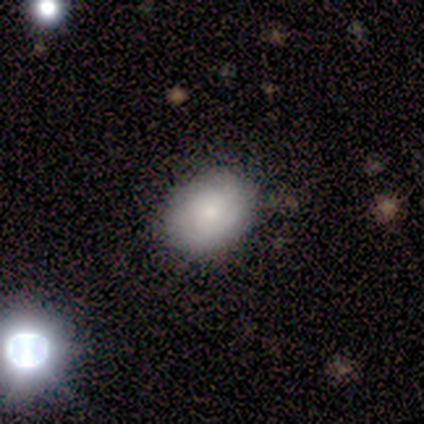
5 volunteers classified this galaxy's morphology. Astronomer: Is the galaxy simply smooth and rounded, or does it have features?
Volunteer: smooth — 100%.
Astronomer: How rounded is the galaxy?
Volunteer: in between — 60% (runner-up: round, 40%).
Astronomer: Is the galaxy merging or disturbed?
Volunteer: none — 60% (runner-up: minor disturbance, 40%).